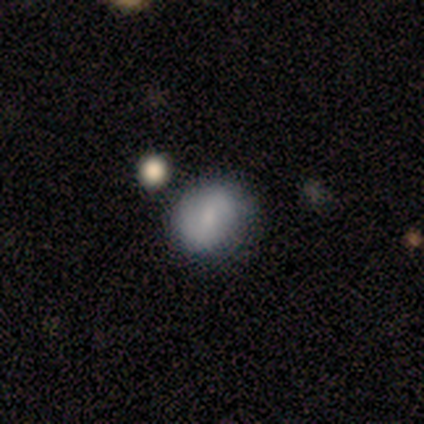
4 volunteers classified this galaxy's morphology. smooth-or-featured: smooth: 100% | featured or disk: 0% | star or artifact: 0%
  how-rounded: round: 50% (tied) | in between: 50% (tied) | cigar-shaped: 0%
  merging: none: 75% | merger: 25% | minor disturbance: 0% | major disturbance: 0%